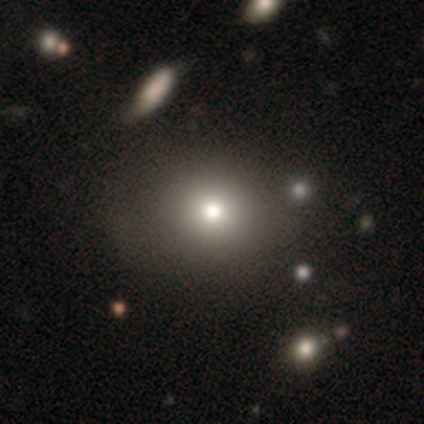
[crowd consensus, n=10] Smooth or featured? 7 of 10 (70%) said smooth. How rounded? 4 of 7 (57%) said round. Merging? 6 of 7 (86%) said none.